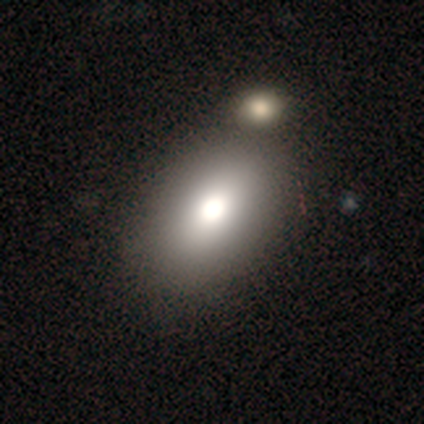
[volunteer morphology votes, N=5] Q: Smooth or featured?
A: smooth (100%)
Q: How rounded?
A: in between (100%)
Q: Merging?
A: minor disturbance (40%); tied with: merger (40%)